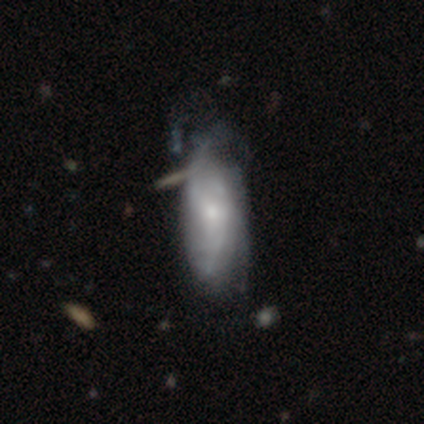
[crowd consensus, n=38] A featured or disk galaxy (71%) with no bar (88%), tight (67%) spiral arms (84%) and a small central bulge (52%).

Vote fractions:
- Smooth or featured? featured or disk: 71% / smooth: 26% / star or artifact: 3%
- Edge-on disk? no: 93% / yes: 7%
- Bar? no: 88% / weak: 12% / strong: 0%
- Spiral arms? yes: 84% / no: 16%
- Spiral winding? tight: 67% / medium: 29% / loose: 5%
- Spiral arm count? can't tell: 57% / 2: 19% / 3: 10% / 4: 10% / 1: 5% / more than 4: 0%
- Bulge size? small: 52% / moderate: 28% / large: 8% / none: 8% / dominant: 4%
- Merging? minor disturbance: 30% / none: 11% / major disturbance: 11% / merger: 8%